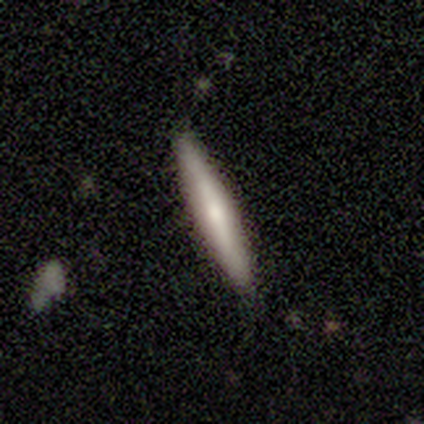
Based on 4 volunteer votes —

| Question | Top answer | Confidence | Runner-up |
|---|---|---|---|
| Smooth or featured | smooth | 75% | featured or disk (25%) |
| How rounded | cigar-shaped | 67% | in between (33%) |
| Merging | none | 100% | — |